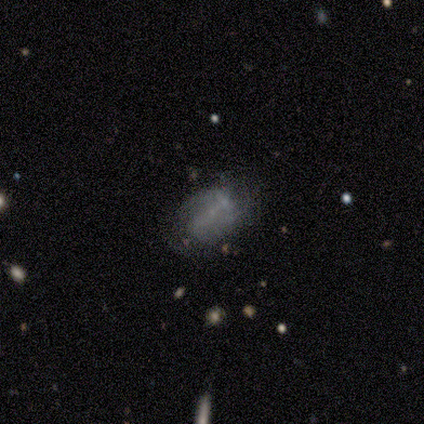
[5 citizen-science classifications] Smooth or featured: featured or disk — 60% (smooth — 40%)
Edge-on disk: no — 100%
Bar: no — 67% (strong — 33%)
Spiral arms: yes — 100%
Spiral winding: loose — 67% (medium — 33%)
Spiral arm count: 2 — 67% (can't tell — 33%)
Bulge size: small — 67% (none — 33%)
Merging: none — 60% (minor disturbance — 40%)